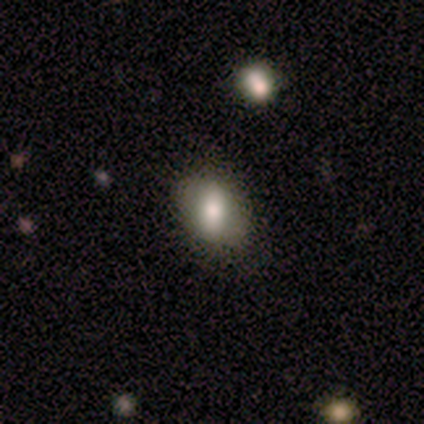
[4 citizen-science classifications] Smooth or featured? 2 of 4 (50%) said smooth. How rounded? 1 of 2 (50%, tied with in between) said round. Merging? 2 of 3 (67%) said minor disturbance.